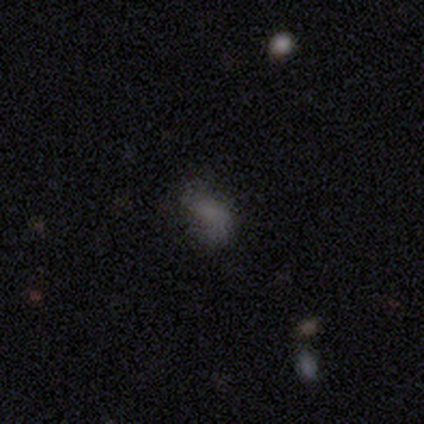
Smooth or featured?
  - smooth: 60% *
  - featured or disk: 40%
  - star or artifact: 0%
How rounded?
  - in between: 67% *
  - round: 33%
  - cigar-shaped: 0%
Merging?
  - none: 60% *
  - minor disturbance: 20%
  - major disturbance: 20%
  - merger: 0%